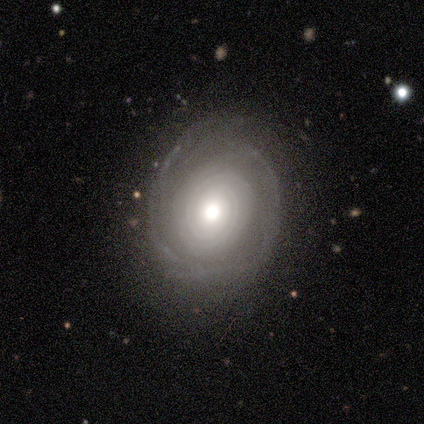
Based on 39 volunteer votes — smooth_or_featured: featured or disk (p=0.85) [alt: smooth p=0.13]
disk_edge_on: no (p=0.91) [alt: yes p=0.09]
bar: no (p=0.87) [alt: weak p=0.10]
has_spiral_arms: yes (p=0.77) [alt: no p=0.23]
spiral_winding: tight (p=0.83) [alt: medium p=0.13]
spiral_arm_count: can't tell (p=0.43) [alt: 1 p=0.17]
bulge_size: moderate (p=0.53) [alt: dominant p=0.20]
merging: none (p=0.61) [alt: minor disturbance p=0.29]